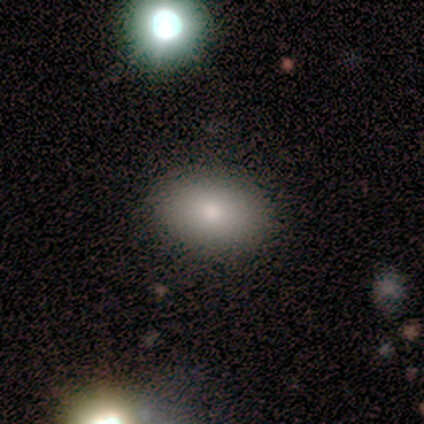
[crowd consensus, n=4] Overall: smooth (100%). How rounded: round (75%). Merging: none (75%).